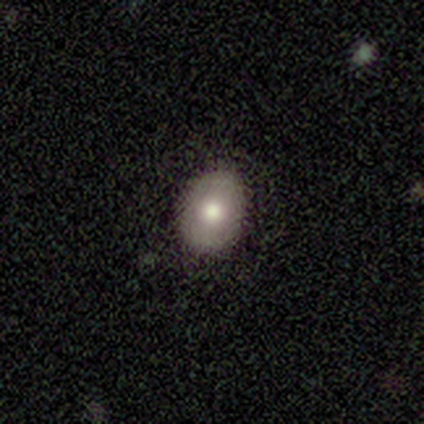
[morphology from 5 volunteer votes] Smooth or featured?
  - smooth: 60% *
  - featured or disk: 20%
  - star or artifact: 20%
How rounded?
  - in between: 100% *
  - round: 0%
  - cigar-shaped: 0%
Merging?
  - none: 100% *
  - minor disturbance: 0%
  - major disturbance: 0%
  - merger: 0%